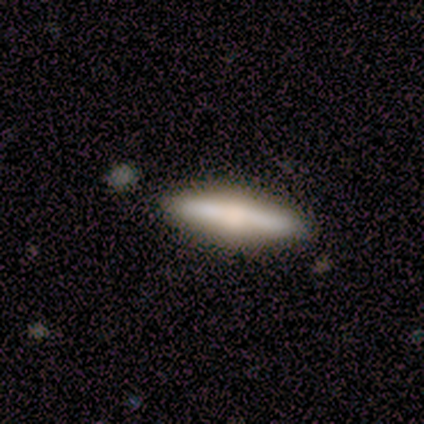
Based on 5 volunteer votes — This is marginally a smooth galaxy (40%, tied with featured or disk). How rounded: clearly cigar-shaped (100%). Merging: clearly none (100%).